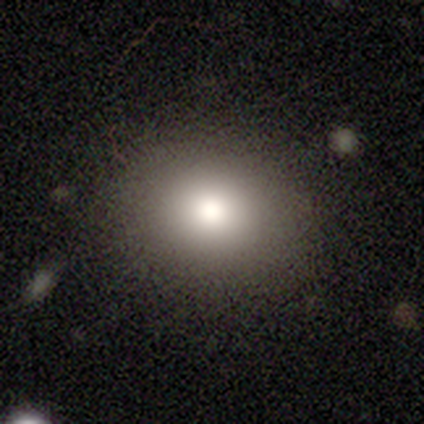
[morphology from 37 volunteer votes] Smooth or featured: smooth — 62% (featured or disk — 19%)
How rounded: round — 57% (in between — 43%)
Merging: none — 93% (minor disturbance — 7%)